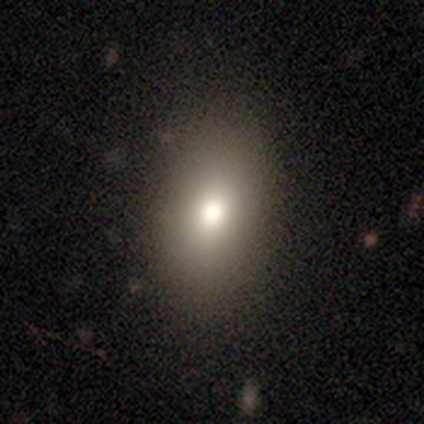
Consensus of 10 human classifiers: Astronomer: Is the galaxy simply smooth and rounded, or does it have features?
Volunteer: smooth — 100%.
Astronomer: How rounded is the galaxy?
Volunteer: in between — 70%.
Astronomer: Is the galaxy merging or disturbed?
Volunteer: none — 90%.